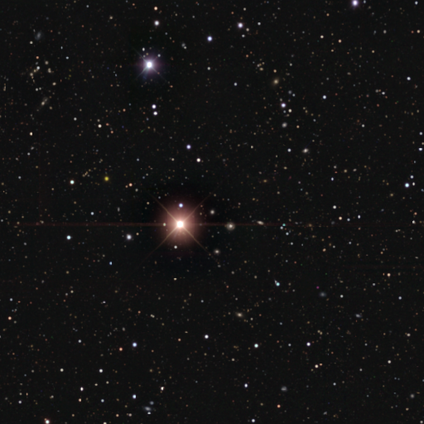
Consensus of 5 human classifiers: Overall: star or artifact (100%).